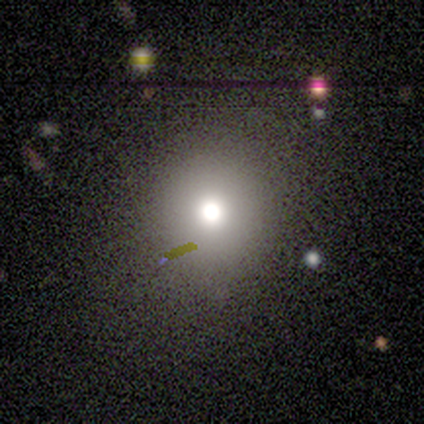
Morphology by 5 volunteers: A smooth galaxy with no disk features (60%) that is round (100%).

Vote fractions:
- Smooth or featured? smooth: 60% / star or artifact: 40% / featured or disk: 0%
- How rounded? round: 100% / in between: 0% / cigar-shaped: 0%
- Merging? none: 100% / minor disturbance: 0% / major disturbance: 0% / merger: 0%